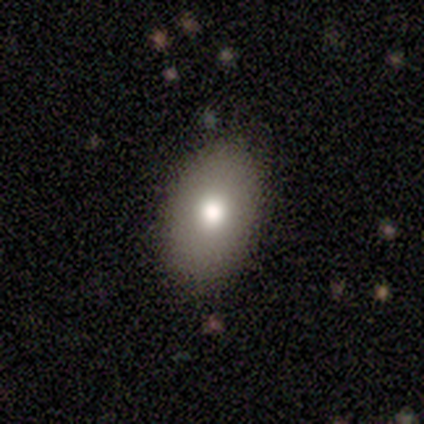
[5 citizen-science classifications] smooth 80%, featured or disk 20%, star or artifact 0%. Down the decision tree: how rounded — in between (75%); merging — none (60%).